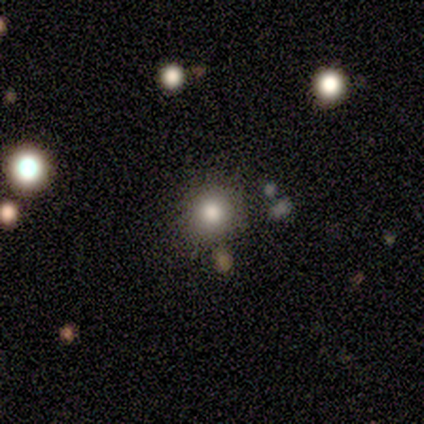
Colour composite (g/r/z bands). It shows a smooth galaxy with no disk features (84%) that is round (94%). Merging: none (84%).